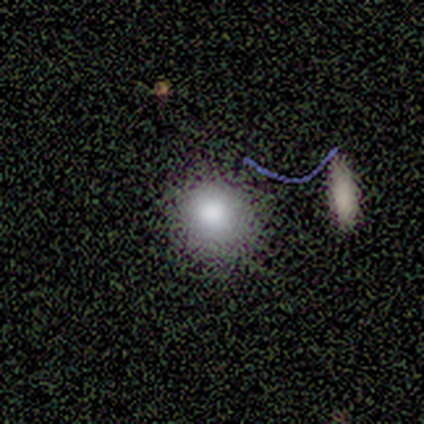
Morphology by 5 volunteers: Volunteers were most divided on "how rounded": round: 60%, in between: 40%, cigar-shaped: 0%. More confident: smooth or featured — smooth (100%); merging — none (80%).